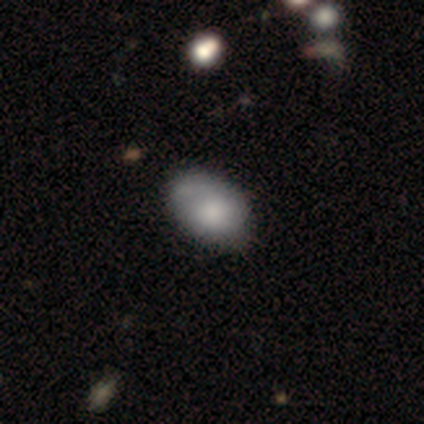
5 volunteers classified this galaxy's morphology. Smooth or featured? smooth (100%)
How rounded? in between (80%)
Merging? none (80%)